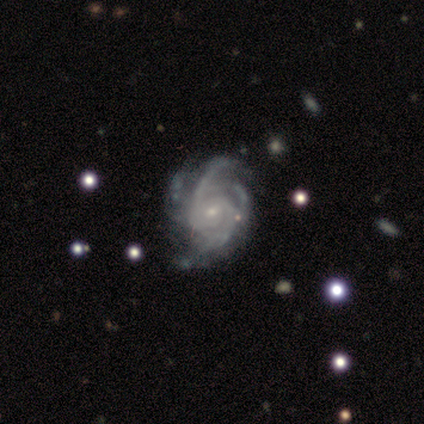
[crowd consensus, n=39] A featured or disk galaxy (92%) with no bar (67%), 3 (25%, tied with 4 and can't tell) tight (42%, tied with medium) spiral arms (100%) and a small central bulge (86%). Merging: none (30%).